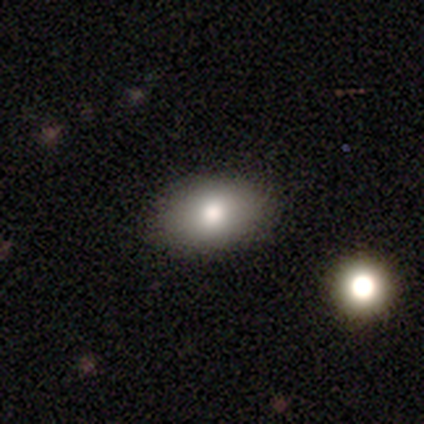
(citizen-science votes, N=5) Smooth or featured?
  - smooth: 60% *
  - featured or disk: 40%
  - star or artifact: 0%
How rounded?
  - in between: 67% *
  - cigar-shaped: 33%
  - round: 0%
Merging?
  - none: 60% *
  - minor disturbance: 40%
  - major disturbance: 0%
  - merger: 0%